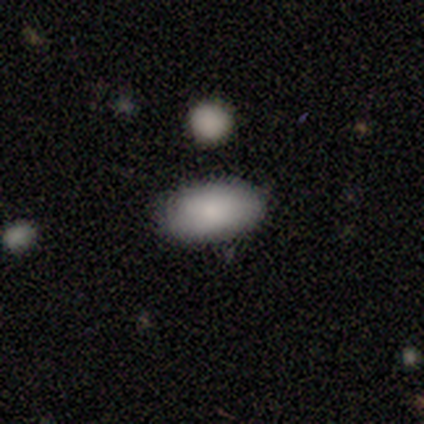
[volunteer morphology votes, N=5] type=smooth (80%); roundness=in between (100%); merging=none (100%).